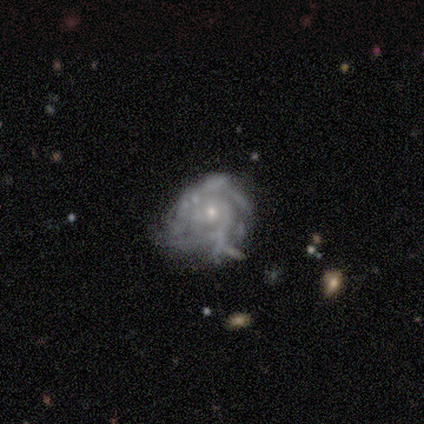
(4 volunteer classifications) Q: Smooth or featured?
A: featured or disk (100%)
Q: Edge-on disk?
A: no (100%)
Q: Bar?
A: no (100%)
Q: Spiral arms?
A: yes (100%)
Q: Spiral winding?
A: tight (100%)
Q: Spiral arm count?
A: 3 (50%); runner-up: 4 (25%)
Q: Bulge size?
A: small (100%)
Q: Merging?
A: none (75%); runner-up: minor disturbance (25%)